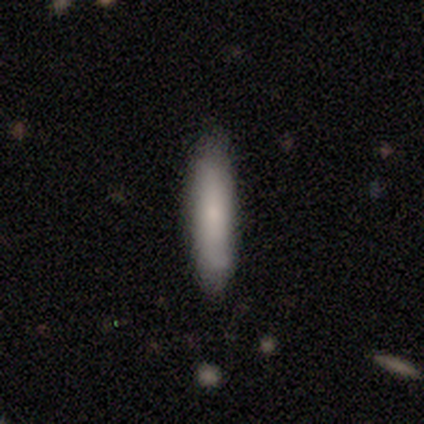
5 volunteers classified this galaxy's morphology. smooth 100%, featured or disk 0%, star or artifact 0%. Down the decision tree: how rounded — cigar-shaped (100%); merging — none (100%).